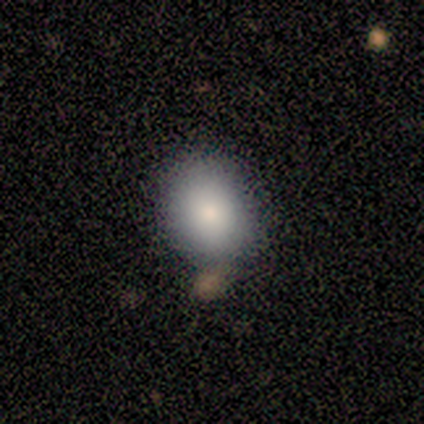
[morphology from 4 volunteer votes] A smooth galaxy with no disk features (100%) that is in between round and cigar-shaped (75%).

Vote fractions:
- Smooth or featured? smooth: 100% / featured or disk: 0% / star or artifact: 0%
- How rounded? in between: 75% / round: 25% / cigar-shaped: 0%
- Merging? none: 100% / minor disturbance: 0% / major disturbance: 0% / merger: 0%